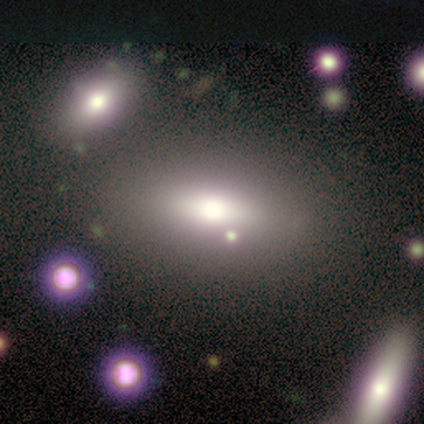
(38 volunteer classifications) Smooth or featured?
  - smooth: 58% *
  - featured or disk: 32%
  - star or artifact: 11%
How rounded?
  - in between: 86% *
  - cigar-shaped: 14%
  - round: 0%
Merging?
  - none: 62% *
  - major disturbance: 18%
  - minor disturbance: 15%
  - merger: 6%